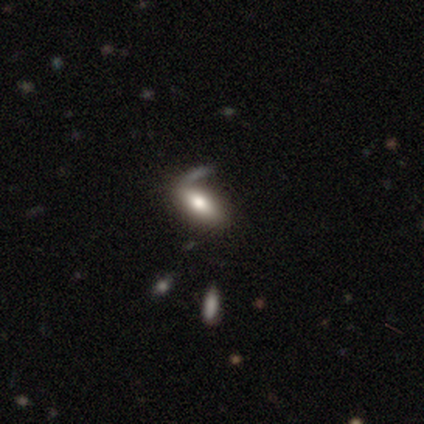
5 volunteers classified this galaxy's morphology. smooth 100%, featured or disk 0%, star or artifact 0%. Down the decision tree: how rounded — in between (80%); merging — none (40%, tied with major disturbance).